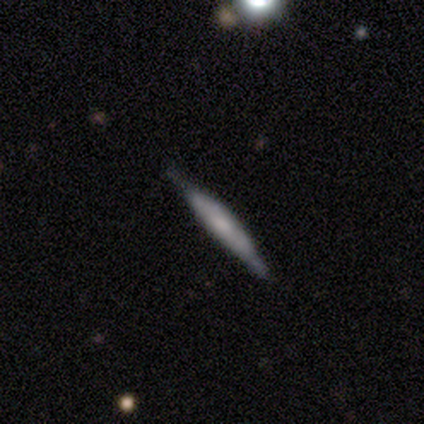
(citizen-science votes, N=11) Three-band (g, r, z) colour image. It shows a smooth galaxy with no disk features (45%, tied with featured or disk) that is cigar-shaped (100%). Merging: none (90%).